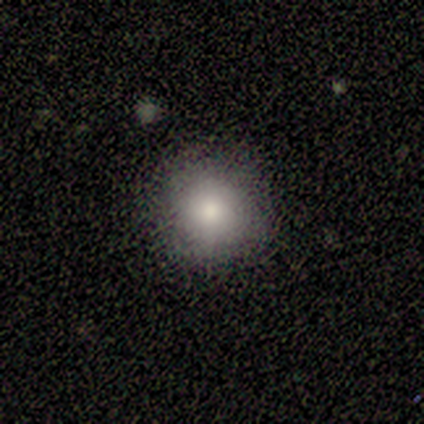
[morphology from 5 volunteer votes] This is clearly a smooth galaxy (80%). How rounded: clearly round (100%). Merging: clearly none (100%).